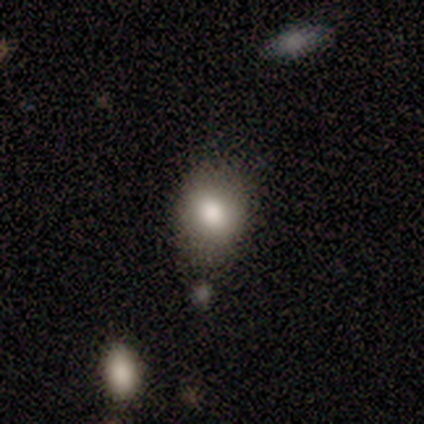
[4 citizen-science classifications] Overall: smooth (50%, tied with featured or disk). How rounded: round (50%, tied with in between). Merging: none (100%).